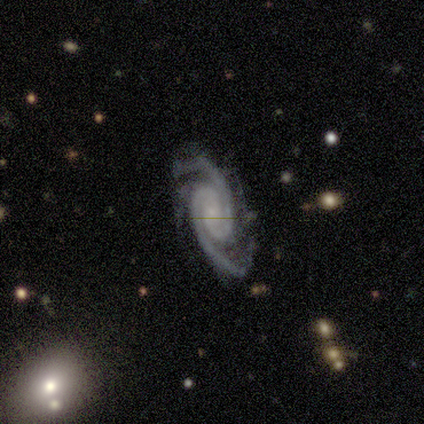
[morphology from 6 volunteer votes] A featured or disk galaxy (100%) with no bar (67%), 2 (67%) tight (67%) spiral arms (100%) and a small central bulge (67%). Merging: none (100%).